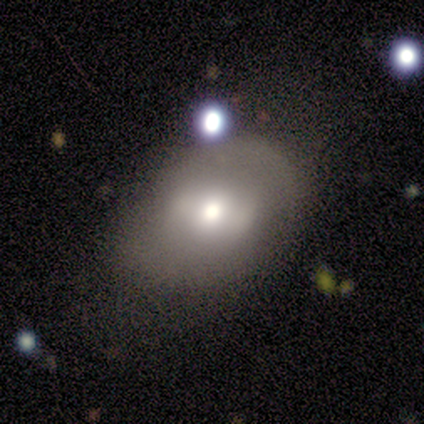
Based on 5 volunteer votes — Smooth or featured: smooth — 80% (star or artifact — 20%)
How rounded: in between — 75% (round — 25%)
Merging: major disturbance — 75% (merger — 25%)